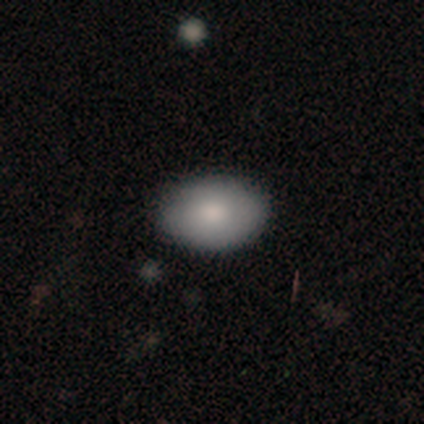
Smooth or featured: smooth — 100%
How rounded: in between — 80% (round — 20%)
Merging: none — 60% (minor disturbance — 20%)